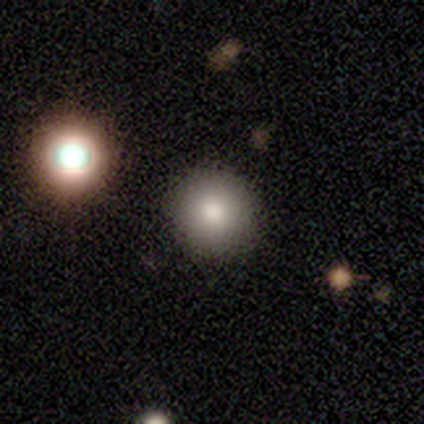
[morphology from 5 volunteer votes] type=smooth (100%); roundness=round (100%); merging=none (100%).